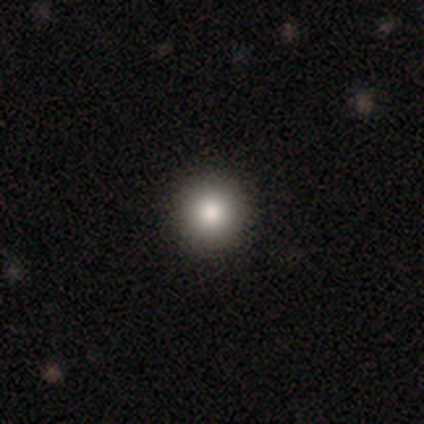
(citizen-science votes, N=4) Smooth or featured? smooth (100%)
How rounded? round (100%)
Merging? none (100%)